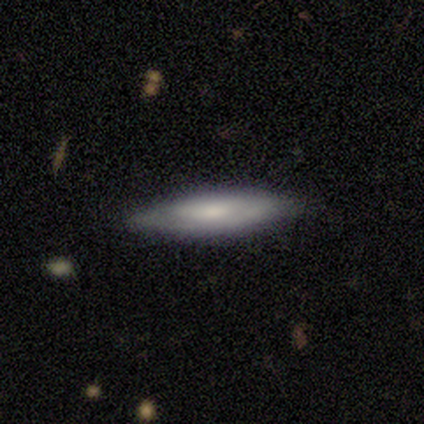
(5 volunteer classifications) Overall: smooth (80%). How rounded: cigar-shaped (75%). Merging: none (80%).